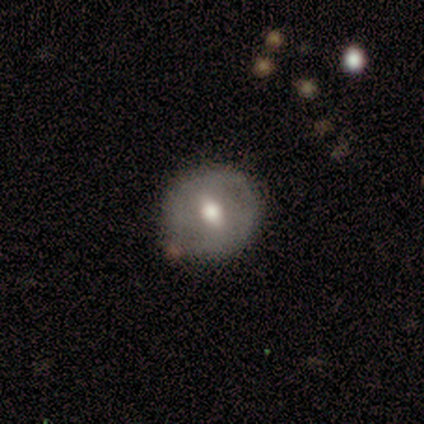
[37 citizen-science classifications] Smooth or featured? featured or disk (54%)
Edge-on disk? no (95%)
Bar? weak (53%)
Spiral arms? no (79%)
Bulge size? moderate (63%)
Merging? none (71%)